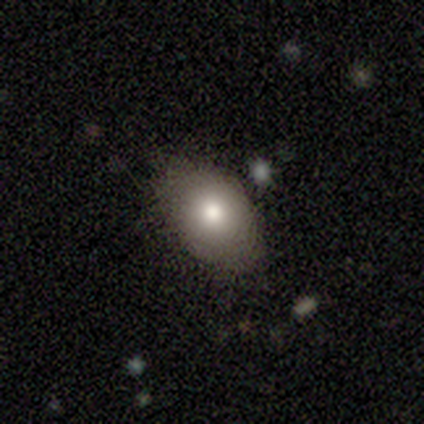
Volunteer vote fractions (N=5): Overall: smooth (80%). How rounded: in between (75%). Merging: none (60%; minor disturbance 40%).